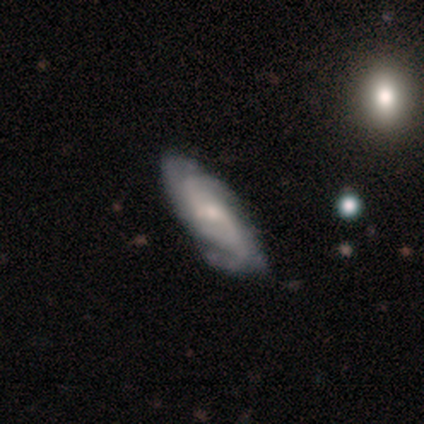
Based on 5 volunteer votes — Overall: featured or disk (100%). Edge-on disk: no (100%). Bar: weak (60%; strong 20%). Spiral arms: yes (80%). Spiral arm count: 3 (75%). Spiral winding: medium (50%; tight 25%). Bulge size: small (60%; moderate 40%). Merging: none (60%; minor disturbance 40%).